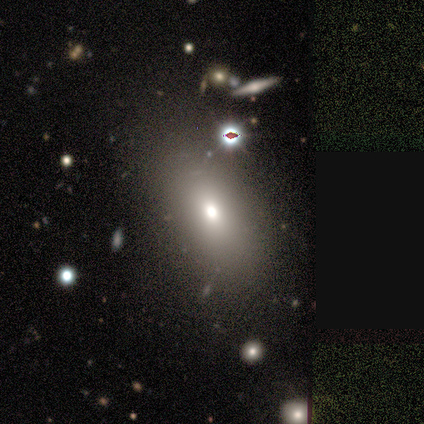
Smooth or featured? 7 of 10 (70%) said smooth. How rounded? 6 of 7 (86%) said in between. Merging? 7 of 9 (78%) said none.